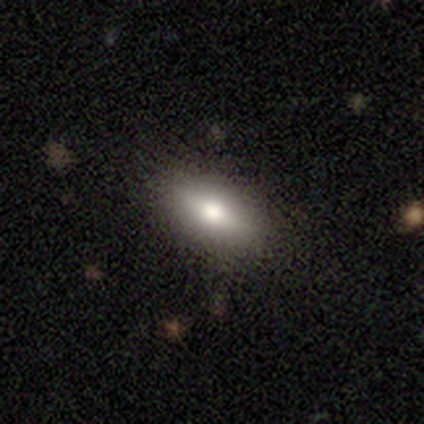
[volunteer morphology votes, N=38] Overall: smooth (61%; featured or disk 34%). How rounded: in between (83%). Merging: none (92%).